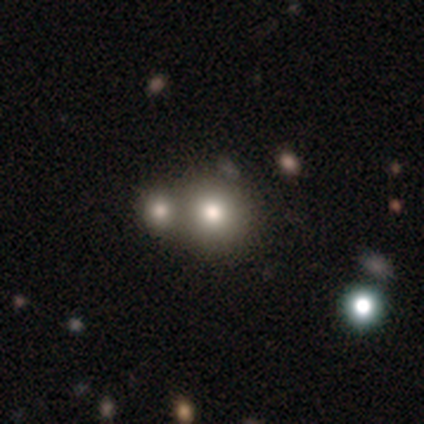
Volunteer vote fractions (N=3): smooth-or-featured: featured or disk: 67% | smooth: 33% | star or artifact: 0%
  disk-edge-on: no: 100% | yes: 0%
    bar: weak: 50% (tied) | no: 50% (tied) | strong: 0%
    has-spiral-arms: no: 100% | yes: 0%
    bulge-size: large: 100% | dominant: 0% | moderate: 0% | small: 0% | none: 0%
  merging: merger: 100% | none: 0% | minor disturbance: 0% | major disturbance: 0%